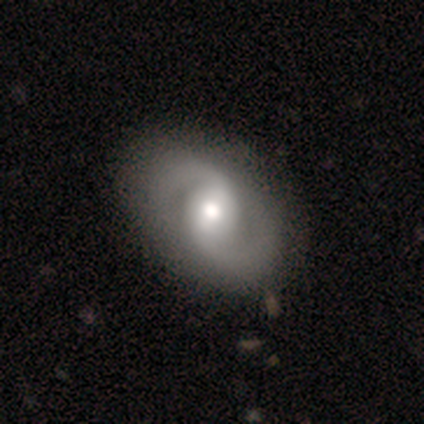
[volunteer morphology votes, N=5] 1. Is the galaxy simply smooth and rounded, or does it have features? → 100% featured or disk, 0% smooth, 0% star or artifact.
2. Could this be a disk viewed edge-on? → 100% no, 0% yes.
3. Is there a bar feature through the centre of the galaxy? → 60% weak, 40% strong, 0% no.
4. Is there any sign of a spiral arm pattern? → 60% yes, 40% no.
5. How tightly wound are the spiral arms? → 67% medium, 33% tight, 0% loose.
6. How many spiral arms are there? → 100% 2, 0% 1, 0% 3, 0% 4, 0% more than 4, 0% can't tell.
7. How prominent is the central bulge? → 100% moderate, 0% dominant, 0% large, 0% small, 0% none.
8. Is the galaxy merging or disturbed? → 80% none, 20% minor disturbance, 0% major disturbance, 0% merger.